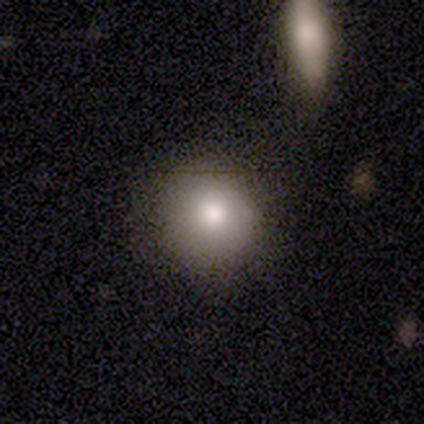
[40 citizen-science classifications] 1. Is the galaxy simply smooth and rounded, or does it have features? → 78% smooth, 12% featured or disk, 10% star or artifact.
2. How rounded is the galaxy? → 94% round, 6% in between, 0% cigar-shaped.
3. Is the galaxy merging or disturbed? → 81% none, 11% minor disturbance, 6% merger, 3% major disturbance.